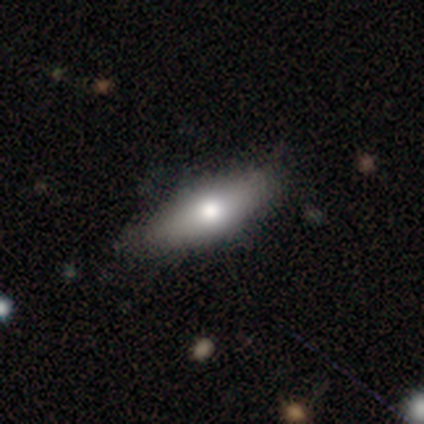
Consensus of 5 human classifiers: Q: Smooth or featured?
A: smooth (100%)
Q: How rounded?
A: cigar-shaped (60%); runner-up: in between (40%)
Q: Merging?
A: none (80%); runner-up: major disturbance (20%)